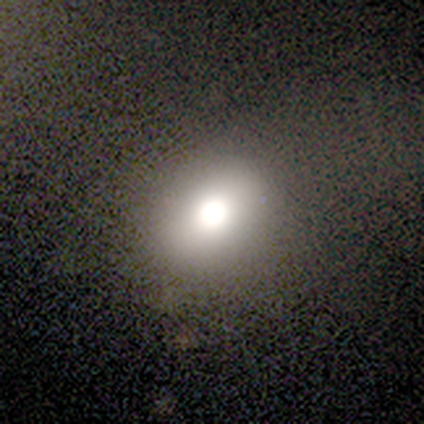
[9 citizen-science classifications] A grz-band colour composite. It shows a smooth galaxy with no disk features (67%) that is in between round and cigar-shaped (67%). Merging: none (71%).